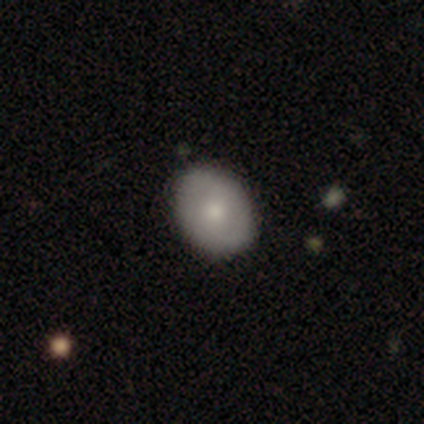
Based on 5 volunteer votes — Smooth or featured?
  - smooth: 100% *
  - featured or disk: 0%
  - star or artifact: 0%
How rounded?
  - round: 60% *
  - in between: 40%
  - cigar-shaped: 0%
Merging?
  - none: 100% *
  - minor disturbance: 0%
  - major disturbance: 0%
  - merger: 0%